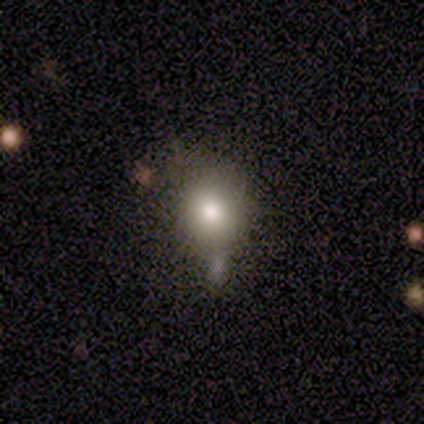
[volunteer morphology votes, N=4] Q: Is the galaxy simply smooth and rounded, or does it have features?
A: smooth — 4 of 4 (100%).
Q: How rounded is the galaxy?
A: round — 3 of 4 (75%).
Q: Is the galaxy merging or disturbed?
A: minor disturbance — 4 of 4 (100%).